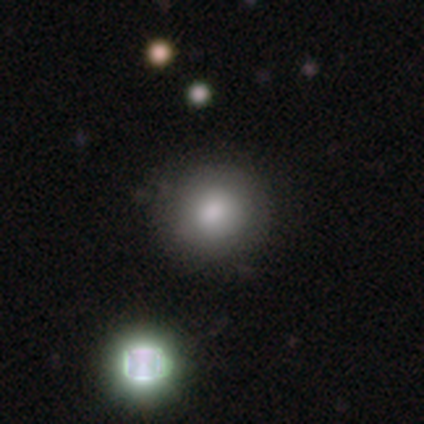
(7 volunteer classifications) A smooth galaxy with no disk features (86%) that is round (83%). Merging: none (83%).